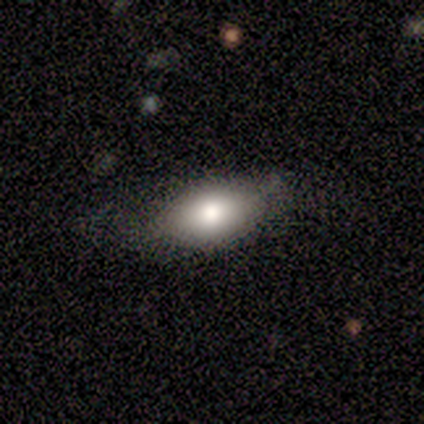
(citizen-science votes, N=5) Q: Smooth or featured?
A: smooth (80%); runner-up: featured or disk (20%)
Q: How rounded?
A: in between (75%); runner-up: round (25%)
Q: Merging?
A: none (80%); runner-up: minor disturbance (20%)